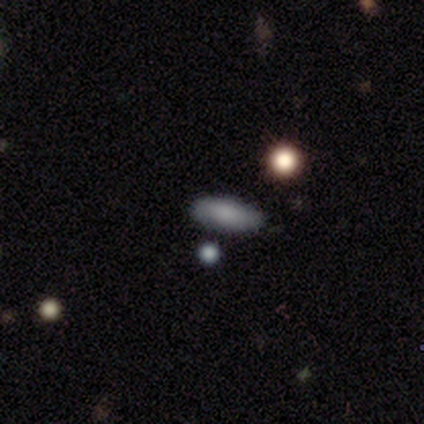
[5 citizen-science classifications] Morphology: type=smooth (100%); roundness=in between (40%, tied with cigar-shaped); merging=none (100%).